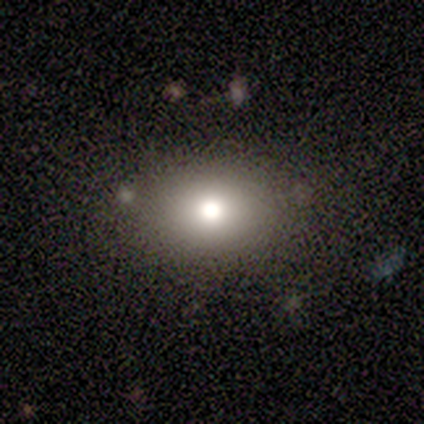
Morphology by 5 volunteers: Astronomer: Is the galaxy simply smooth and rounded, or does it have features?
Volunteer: smooth — 40%, tied with featured or disk at 40%.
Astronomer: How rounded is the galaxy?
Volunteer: round — 50%, tied with in between at 50%.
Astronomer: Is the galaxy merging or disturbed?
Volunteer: none — 100%.